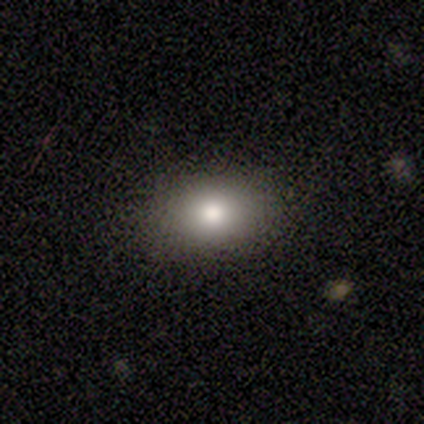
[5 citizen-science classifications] Smooth or featured? smooth (80%)
How rounded? round (50%, tied with in between)
Merging? none (100%)